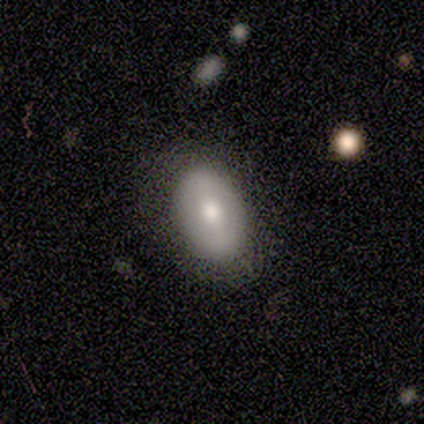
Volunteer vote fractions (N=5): A smooth galaxy with no disk features (80%) that is in between round and cigar-shaped (100%).

Vote fractions:
- Smooth or featured? smooth: 80% / star or artifact: 20% / featured or disk: 0%
- How rounded? in between: 100% / round: 0% / cigar-shaped: 0%
- Merging? none: 100% / minor disturbance: 0% / major disturbance: 0% / merger: 0%